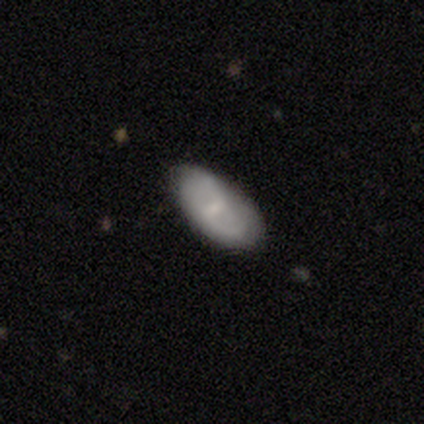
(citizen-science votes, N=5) This is clearly a smooth galaxy (80%). How rounded: clearly in between (100%). Merging: clearly none (100%).